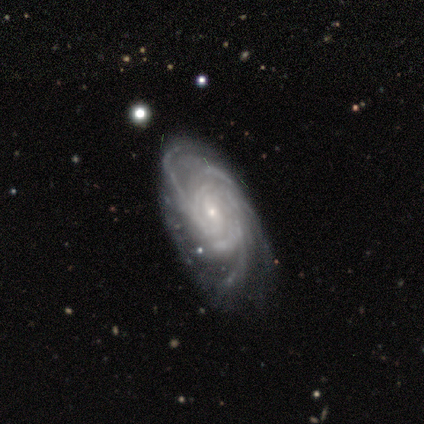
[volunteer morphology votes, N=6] type=featured or disk (83%); edge-on=no (100%); bar=weak (60%); spiral arms=yes (100%); winding=tight (80%); arm count=more than 4 (60%); bulge=small (80%); merging=none (100%).